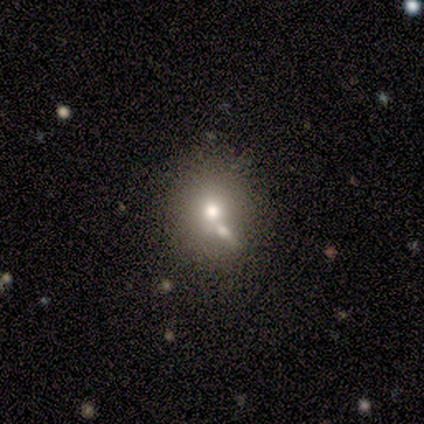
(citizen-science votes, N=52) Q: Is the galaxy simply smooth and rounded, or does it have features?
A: smooth — 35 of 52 (67%).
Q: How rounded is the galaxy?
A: round — 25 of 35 (71%).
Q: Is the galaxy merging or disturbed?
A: none — 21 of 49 (43%).